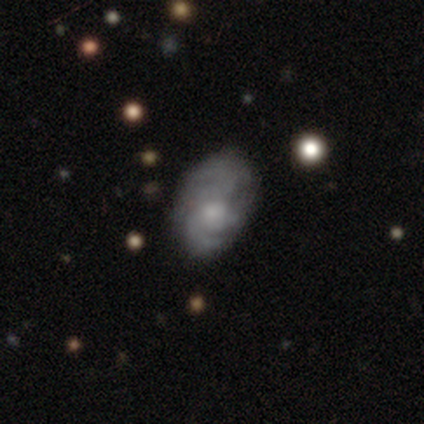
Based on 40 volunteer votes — smooth-or-featured: featured or disk: 75% | smooth: 20% | star or artifact: 5%
  disk-edge-on: no: 100% | yes: 0%
    bar: no: 87% | weak: 13% | strong: 0%
    has-spiral-arms: yes: 73% | no: 27%
      spiral-winding: tight: 55% | medium: 36% | loose: 9%
      spiral-arm-count: can't tell: 41% | 3: 27% | 2: 23% | 1: 5% | 4: 5% | more than 4: 0%
    bulge-size: moderate: 40% | small: 33% | none: 20% | large: 7% | dominant: 0%
  merging: none: 34% | minor disturbance: 21% | major disturbance: 21% | merger: 8%